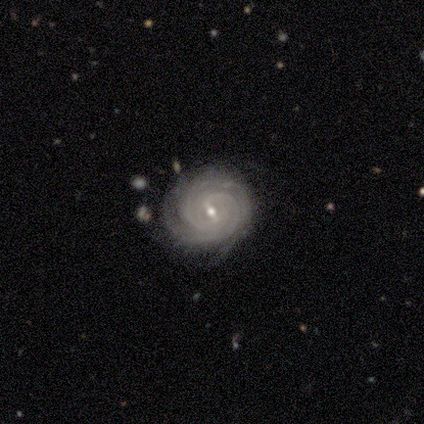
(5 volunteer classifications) Volunteers were most divided on "bar": weak: 50%, strong: 25%, no: 25%. More confident: smooth or featured — featured or disk (100%); spiral arms — yes (100%); spiral winding — tight (100%); bulge size — small (100%); merging — none (100%); edge-on disk — no (80%); spiral arm count — more than 4 (50%).